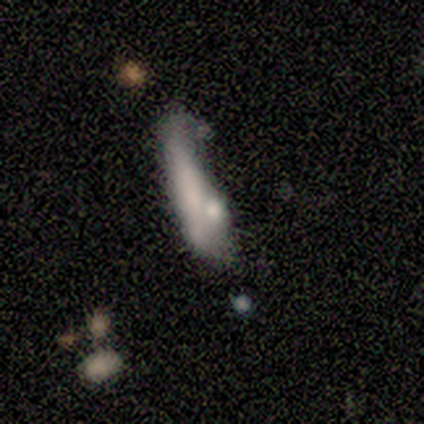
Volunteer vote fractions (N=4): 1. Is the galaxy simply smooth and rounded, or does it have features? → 50% featured or disk, 25% smooth, 25% star or artifact.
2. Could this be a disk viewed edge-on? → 50% yes (tied), 50% no (tied).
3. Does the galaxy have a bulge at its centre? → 100% none, 0% boxy, 0% rounded.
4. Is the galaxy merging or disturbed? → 67% minor disturbance, 33% none, 0% major disturbance, 0% merger.